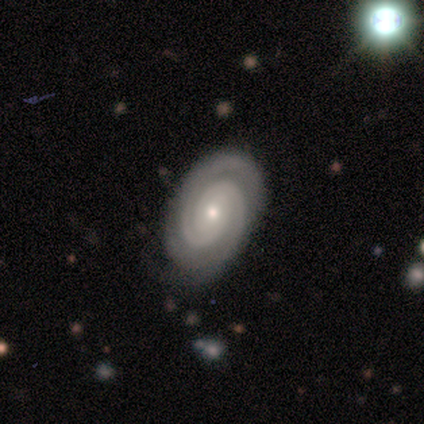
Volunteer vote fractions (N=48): Smooth or featured?
  - featured or disk: 90% *
  - smooth: 6%
  - star or artifact: 4%
Edge-on disk?
  - no: 100% *
  - yes: 0%
Bar?
  - no: 88% *
  - weak: 9%
  - strong: 2%
Spiral arms?
  - yes: 100% *
  - no: 0%
Spiral winding?
  - tight: 86% *
  - medium: 9%
  - loose: 5%
Spiral arm count?
  - 2: 74% *
  - 3: 14%
  - can't tell: 9%
  - 4: 2%
  - 1: 0%
  - more than 4: 0%
Bulge size?
  - small: 53% *
  - moderate: 44%
  - dominant: 2%
  - large: 0%
  - none: 0%
Merging?
  - none: 87% *
  - major disturbance: 7%
  - minor disturbance: 4%
  - merger: 2%